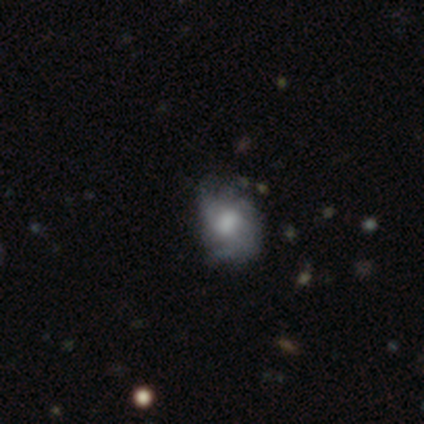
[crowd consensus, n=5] Smooth or featured? smooth (60%)
How rounded? round (33%, tied with in between and cigar-shaped)
Merging? minor disturbance (40%)